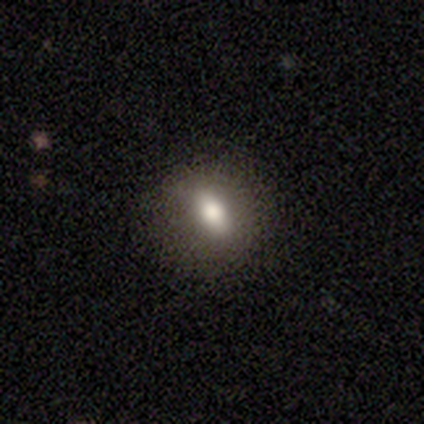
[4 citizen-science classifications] Smooth or featured?
  - smooth: 100% *
  - featured or disk: 0%
  - star or artifact: 0%
How rounded?
  - in between: 75% *
  - round: 25%
  - cigar-shaped: 0%
Merging?
  - none: 75% *
  - minor disturbance: 25%
  - major disturbance: 0%
  - merger: 0%